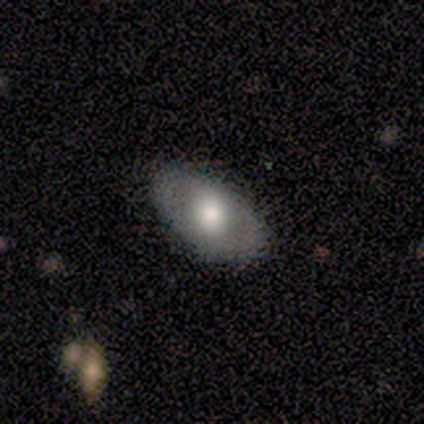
smooth 71%, featured or disk 29%, star or artifact 0%. Down the decision tree: how rounded — in between (80%); merging — none (100%).